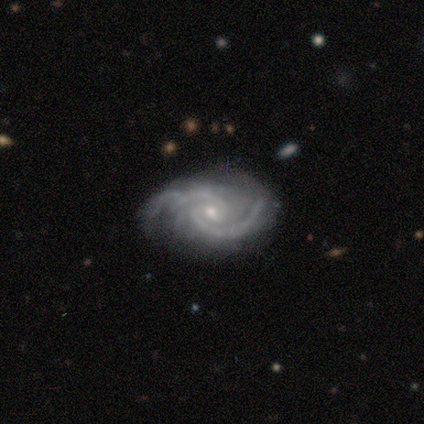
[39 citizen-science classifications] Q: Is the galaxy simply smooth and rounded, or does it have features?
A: featured or disk — 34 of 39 (87%).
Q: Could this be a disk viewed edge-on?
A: no — 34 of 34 (100%).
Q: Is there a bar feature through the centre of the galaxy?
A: no — 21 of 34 (62%).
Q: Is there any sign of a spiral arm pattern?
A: yes — 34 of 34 (100%).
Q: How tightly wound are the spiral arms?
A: medium — 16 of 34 (47%).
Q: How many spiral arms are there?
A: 2 — 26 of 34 (76%).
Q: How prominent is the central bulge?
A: small — 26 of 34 (76%).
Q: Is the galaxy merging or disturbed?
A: none — 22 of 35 (63%).